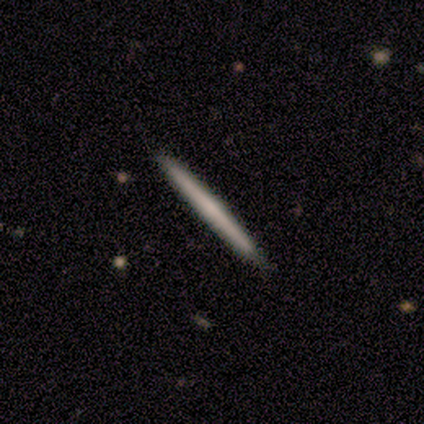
smooth 60%, featured or disk 20%, star or artifact 20%. Down the decision tree: how rounded — cigar-shaped (100%); merging — none (100%).